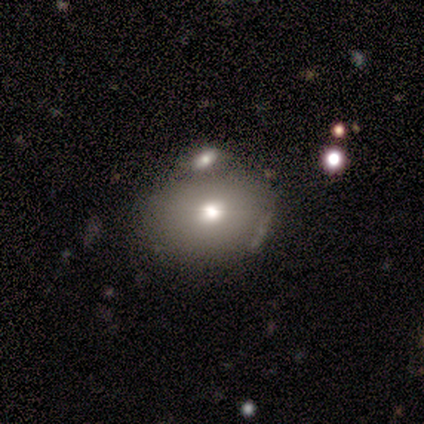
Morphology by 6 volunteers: Smooth or featured? 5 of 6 (83%) said smooth. How rounded? 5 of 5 (100%) said in between. Merging? 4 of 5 (80%) said none.